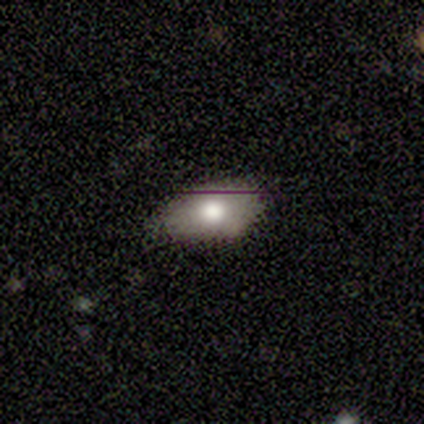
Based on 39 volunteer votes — A smooth galaxy with no disk features (62%) that is in between round and cigar-shaped (88%).

Vote fractions:
- Smooth or featured? smooth: 62% / featured or disk: 26% / star or artifact: 13%
- How rounded? in between: 88% / round: 12% / cigar-shaped: 0%
- Merging? none: 68% / minor disturbance: 26% / major disturbance: 6% / merger: 0%